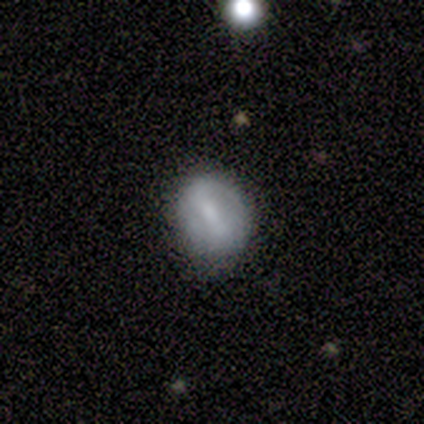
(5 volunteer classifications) Overall: smooth (100%). How rounded: round (60%; in between 40%). Merging: none (100%).